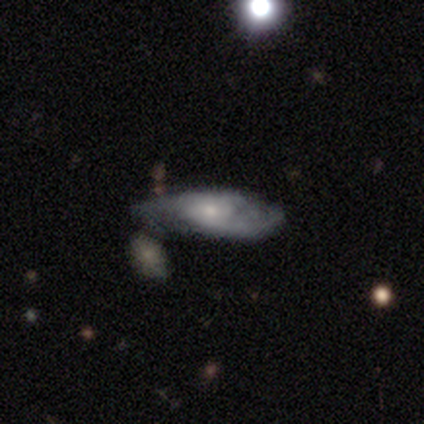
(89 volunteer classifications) Morphology: type=featured or disk (70%); edge-on=no (81%); bar=no (72%); spiral arms=yes (86%); winding=tight (42%); arm count=2 (42%); bulge=moderate (48%, tied with small); merging=none (49%).